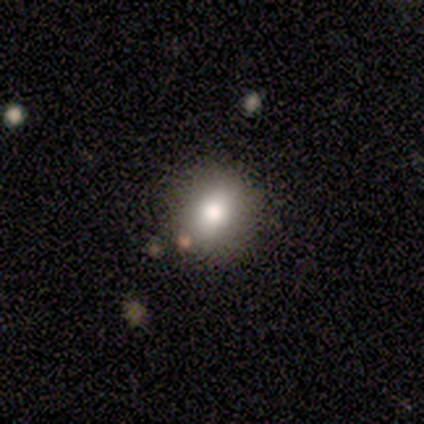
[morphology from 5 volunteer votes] Volunteers were most divided on "how rounded": round: 60%, in between: 40%, cigar-shaped: 0%. More confident: smooth or featured — smooth (100%); merging — none (100%).